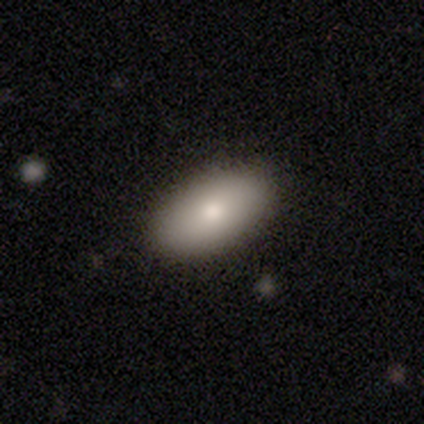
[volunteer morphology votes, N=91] Smooth or featured?
  - smooth: 81% *
  - featured or disk: 15%
  - star or artifact: 3%
How rounded?
  - in between: 93% *
  - cigar-shaped: 4%
  - round: 3%
Merging?
  - none: 85% *
  - minor disturbance: 12%
  - major disturbance: 1%
  - merger: 1%